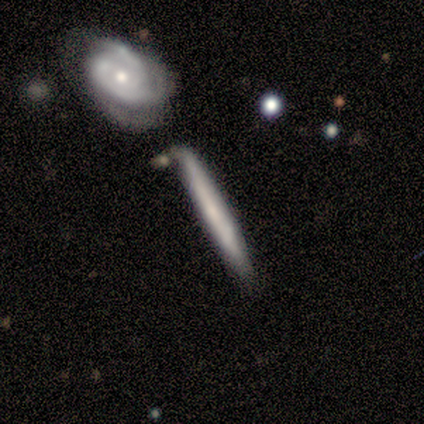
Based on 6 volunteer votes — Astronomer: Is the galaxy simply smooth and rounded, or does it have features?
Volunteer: smooth — 83%.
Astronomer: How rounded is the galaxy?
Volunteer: cigar-shaped — 100%.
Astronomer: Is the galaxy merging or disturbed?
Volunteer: none — 100%.